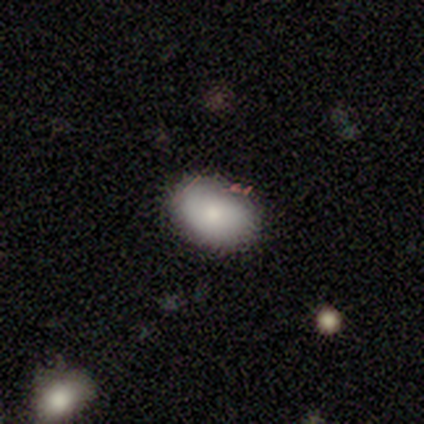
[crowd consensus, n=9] This appears to be a smooth galaxy with no disk features (78%) that is in between round and cigar-shaped (71%). Merging: none (100%).